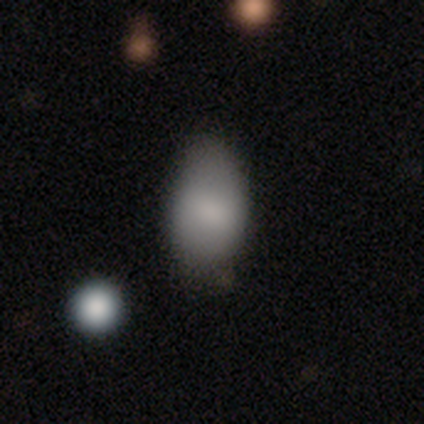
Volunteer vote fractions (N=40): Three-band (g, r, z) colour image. It shows a smooth galaxy with no disk features (88%) that is in between round and cigar-shaped (94%). Merging: none (53%).